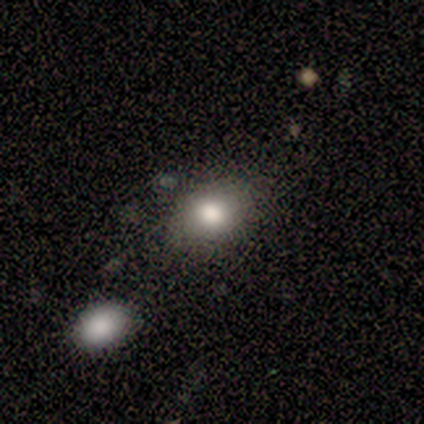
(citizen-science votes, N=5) A smooth galaxy with no disk features (40%, tied with featured or disk) that is in between round and cigar-shaped (100%).

Vote fractions:
- Smooth or featured? smooth: 40% (tied) / featured or disk: 40% (tied) / star or artifact: 20%
- How rounded? in between: 100% / round: 0% / cigar-shaped: 0%
- Merging? none: 75% / merger: 25% / minor disturbance: 0% / major disturbance: 0%